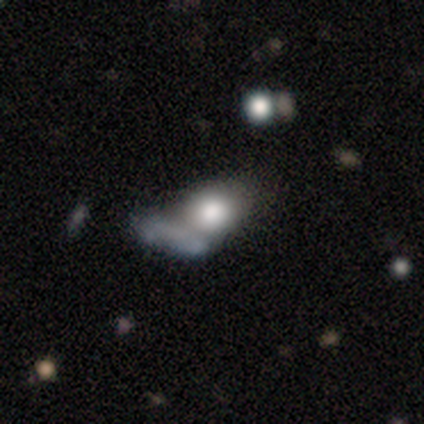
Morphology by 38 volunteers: This appears to be a smooth galaxy with no disk features (68%) that is round (54%). Merging: merger (58%).